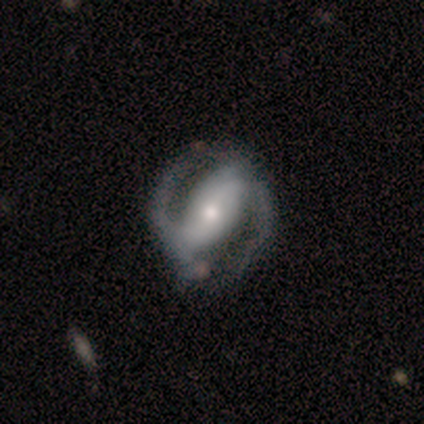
This appears to be a featured or disk galaxy (87%) with a strong bar (67%), 2 (97%) medium (53%) spiral arms (97%) and a moderate central bulge (58%). Merging: none (71%).